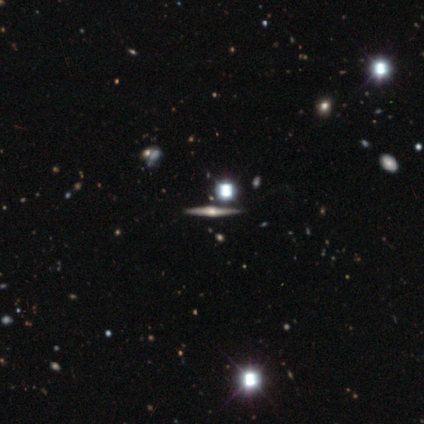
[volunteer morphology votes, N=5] Smooth or featured? 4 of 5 (80%) said featured or disk. Edge-on disk? 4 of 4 (100%) said yes. Edge-on bulge? 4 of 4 (100%) said rounded. Merging? 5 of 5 (100%) said none.